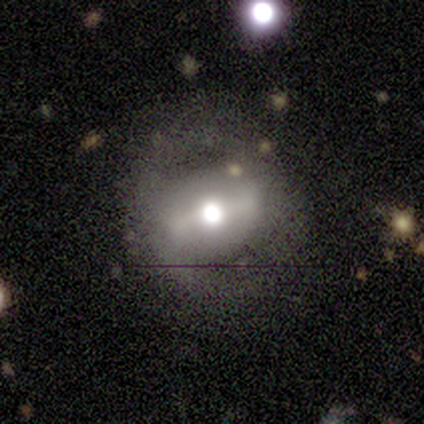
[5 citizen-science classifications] Smooth or featured?
  - featured or disk: 80% *
  - smooth: 20%
  - star or artifact: 0%
Edge-on disk?
  - no: 100% *
  - yes: 0%
Bar?
  - strong: 50% *
  - weak: 25%
  - no: 25%
Spiral arms?
  - no: 100% *
  - yes: 0%
Bulge size?
  - moderate: 50% *
  - large: 25%
  - none: 25%
  - dominant: 0%
  - small: 0%
Merging?
  - none: 80% *
  - minor disturbance: 20%
  - major disturbance: 0%
  - merger: 0%